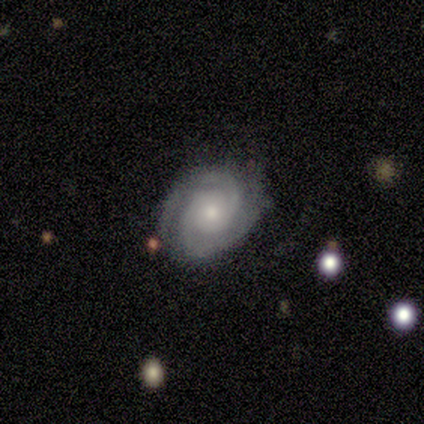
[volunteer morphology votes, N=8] smooth_or_featured: featured or disk (p=0.88) [alt: smooth p=0.12]
disk_edge_on: no (p=1.00)
bar: no (p=0.86) [alt: weak p=0.14]
has_spiral_arms: yes (p=1.00)
spiral_winding: tight (p=0.86) [alt: medium p=0.14]
spiral_arm_count: 2 (p=0.71) [alt: 3 p=0.29]
bulge_size: moderate (p=0.43) [tied with: small p=0.43]
merging: none (p=0.75) [alt: minor disturbance p=0.25]